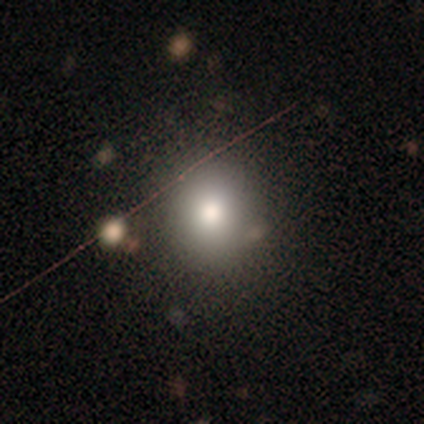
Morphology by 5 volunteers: Volunteers were most divided on "how rounded": round: 67%, in between: 33%, cigar-shaped: 0%. More confident: merging — none (75%); smooth or featured — smooth (60%).